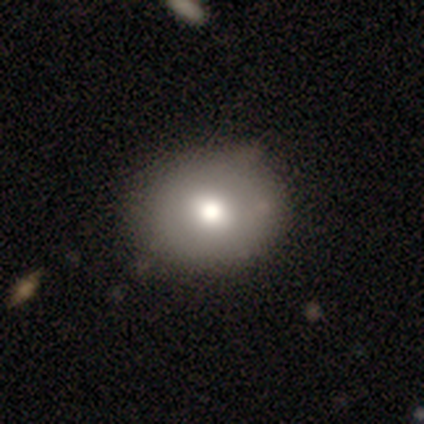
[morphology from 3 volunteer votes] Overall: featured or disk (67%; smooth 33%). Edge-on disk: yes (50%, tied with no). Edge-on bulge: rounded (100%). Merging: none (67%; minor disturbance 33%).